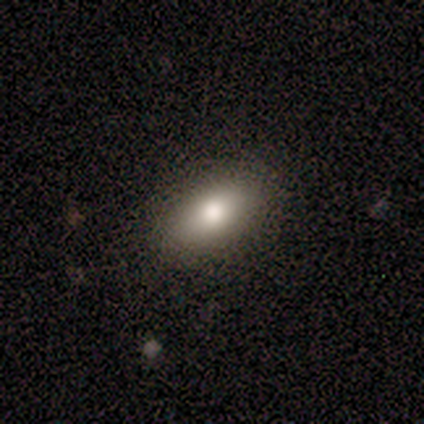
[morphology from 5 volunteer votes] Smooth or featured? 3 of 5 (60%) said smooth. How rounded? 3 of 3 (100%) said in between. Merging? 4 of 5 (80%) said none.